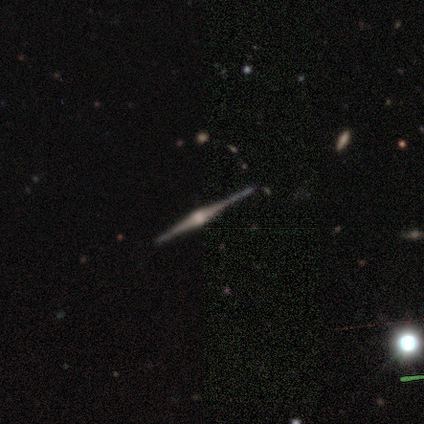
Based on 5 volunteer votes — Volunteers were most divided on "merging": none: 80%, minor disturbance: 20%, major disturbance: 0%, merger: 0%. More confident: smooth or featured — featured or disk (100%); edge-on disk — yes (100%); edge-on bulge — rounded (100%).